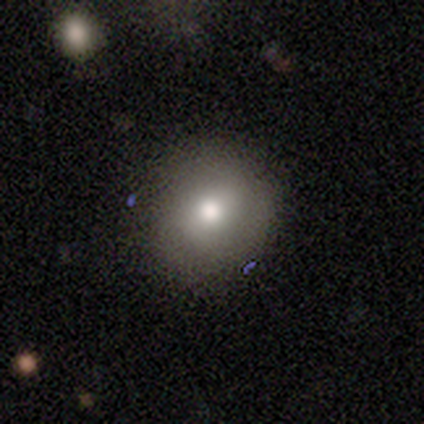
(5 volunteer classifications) Volunteers were most divided on "smooth or featured": smooth: 80%, star or artifact: 20%, featured or disk: 0%. More confident: how rounded — round (100%); merging — none (100%).